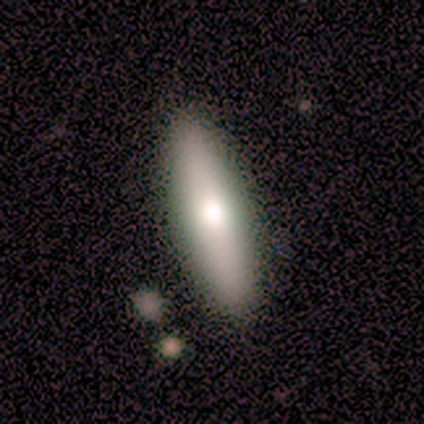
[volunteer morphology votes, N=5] Q: Smooth or featured?
A: featured or disk (60%); runner-up: smooth (20%)
Q: Edge-on disk?
A: yes (100%)
Q: Edge-on bulge?
A: rounded (100%)
Q: Merging?
A: none (75%); runner-up: minor disturbance (25%)